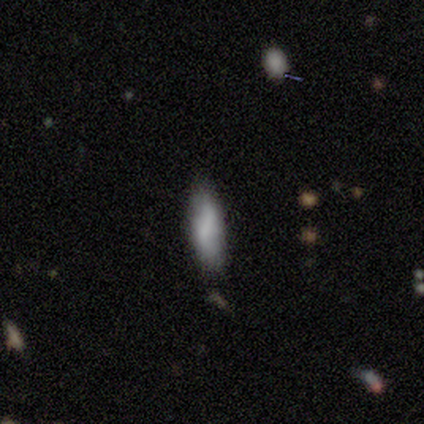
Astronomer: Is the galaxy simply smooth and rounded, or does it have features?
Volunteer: smooth — 100%.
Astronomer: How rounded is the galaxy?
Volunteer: in between — 80%.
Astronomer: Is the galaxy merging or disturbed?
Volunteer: minor disturbance — 100%.